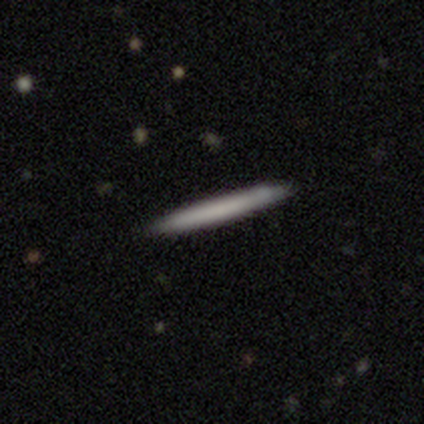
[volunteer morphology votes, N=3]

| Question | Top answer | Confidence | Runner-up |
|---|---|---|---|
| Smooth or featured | featured or disk | 67% | smooth (33%) |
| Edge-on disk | yes | 100% | — |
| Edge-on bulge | none | 100% | — |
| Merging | none | 100% | — |